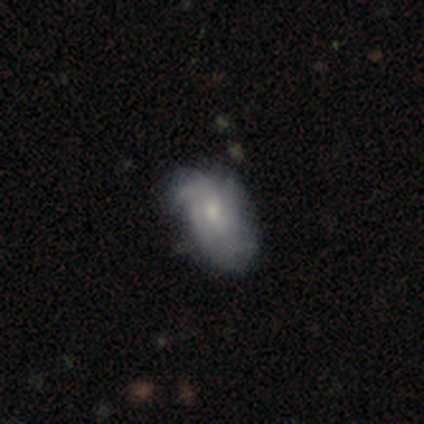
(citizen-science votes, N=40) This appears to be a featured or disk galaxy (62%) with no bar (71%), 3 (39%) medium (44%) spiral arms (75%) and a small central bulge (58%). Merging: none (38%).